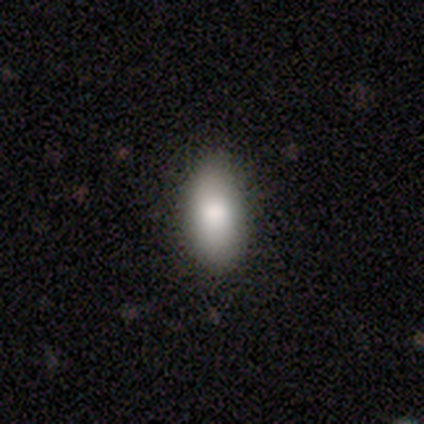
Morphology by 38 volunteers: Q: Smooth or featured?
A: smooth (82%); runner-up: featured or disk (16%)
Q: How rounded?
A: in between (94%); runner-up: cigar-shaped (6%)
Q: Merging?
A: none (65%); runner-up: minor disturbance (5%)